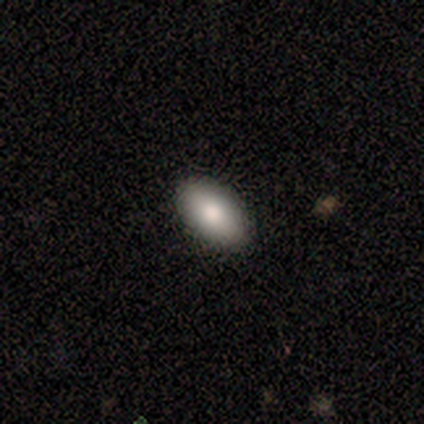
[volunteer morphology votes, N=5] This appears to be a smooth galaxy with no disk features (80%) that is in between round and cigar-shaped (100%). Merging: none (100%).